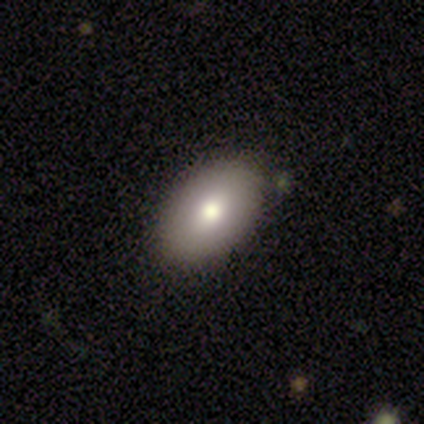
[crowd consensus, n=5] Smooth or featured?
  - smooth: 100% *
  - featured or disk: 0%
  - star or artifact: 0%
How rounded?
  - in between: 60% *
  - round: 40%
  - cigar-shaped: 0%
Merging?
  - none: 100% *
  - minor disturbance: 0%
  - major disturbance: 0%
  - merger: 0%